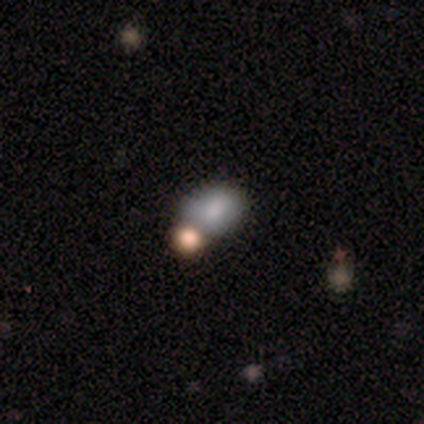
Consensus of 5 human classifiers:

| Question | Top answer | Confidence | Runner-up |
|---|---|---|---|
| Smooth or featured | smooth | 100% | — |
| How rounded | in between | 100% | — |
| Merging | merger | 80% | none (20%) |